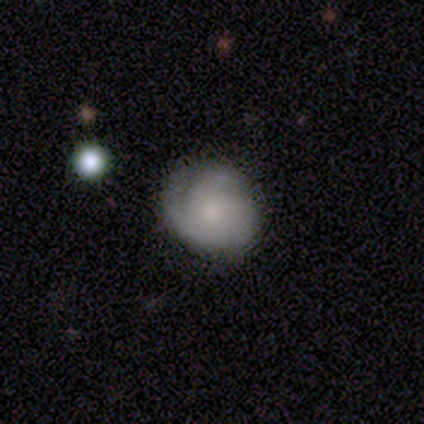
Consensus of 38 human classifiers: A featured or disk galaxy (55%) with no bar (86%), 2 (42%, tied with 3) tight (63%) spiral arms (90%) and a small central bulge (43%).

Vote fractions:
- Smooth or featured? featured or disk: 55% / smooth: 34% / star or artifact: 11%
- Edge-on disk? no: 100% / yes: 0%
- Bar? no: 86% / weak: 14% / strong: 0%
- Spiral arms? yes: 90% / no: 10%
- Spiral winding? tight: 63% / medium: 21% / loose: 16%
- Spiral arm count? 2: 42% (tied) / 3: 42% (tied) / can't tell: 16% / 1: 0% / 4: 0% / more than 4: 0%
- Bulge size? small: 43% / moderate: 38% / none: 19% / dominant: 0% / large: 0%
- Merging? none: 71% / minor disturbance: 24% / major disturbance: 6% / merger: 0%